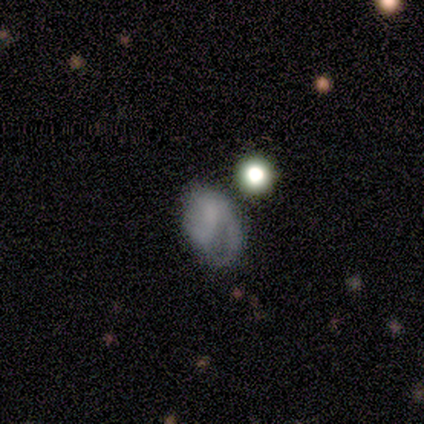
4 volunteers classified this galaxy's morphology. Smooth or featured? 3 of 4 (75%) said smooth. How rounded? 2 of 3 (67%) said in between. Merging? 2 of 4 (50%, tied with minor disturbance) said none.